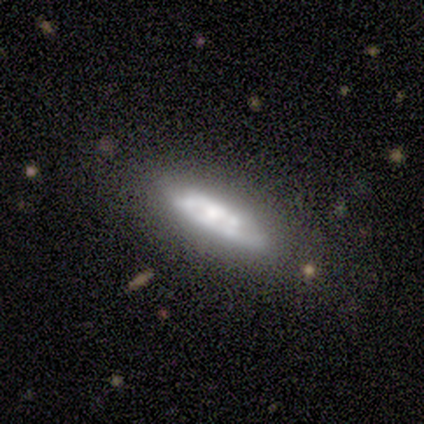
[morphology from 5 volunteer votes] Smooth or featured? featured or disk (100%)
Edge-on disk? no (100%)
Bar? weak (60%)
Spiral arms? no (80%)
Bulge size? moderate (80%)
Merging? none (80%)